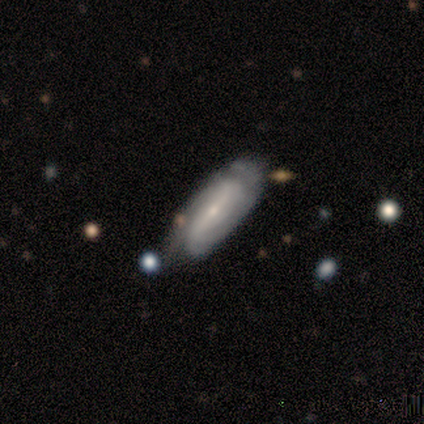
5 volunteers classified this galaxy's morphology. smooth_or_featured: featured or disk (p=0.60) [alt: smooth p=0.40]
disk_edge_on: no (p=0.67) [alt: yes p=0.33]
bar: strong (p=1.00)
has_spiral_arms: yes (p=1.00)
spiral_winding: tight (p=0.50) [tied with: loose p=0.50]
spiral_arm_count: 2 (p=1.00)
bulge_size: small (p=1.00)
merging: none (p=0.60) [alt: minor disturbance p=0.40]